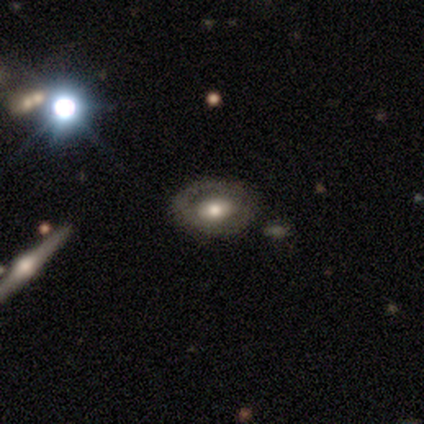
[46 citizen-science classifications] A featured or disk galaxy (59%) with no bar (62%), no spiral arms (73%) and a moderate central bulge (73%).

Vote fractions:
- Smooth or featured? featured or disk: 59% / smooth: 30% / star or artifact: 11%
- Edge-on disk? no: 96% / yes: 4%
- Bar? no: 62% / weak: 23% / strong: 15%
- Spiral arms? no: 73% / yes: 27%
- Bulge size? moderate: 73% / large: 12% / small: 12% / dominant: 4% / none: 0%
- Merging? none: 73% / minor disturbance: 20% / major disturbance: 5% / merger: 2%